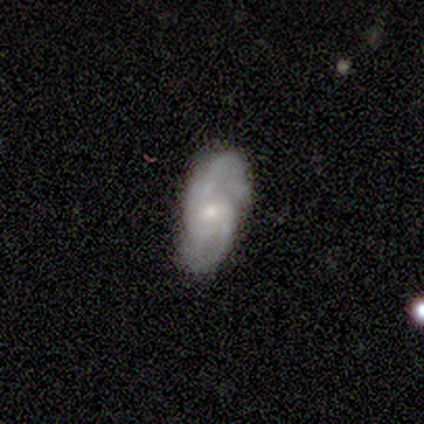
Volunteers were most divided on "spiral arm count" (2-way tie): 2: 50%, 3: 50%, 1: 0%, 4: 0%, more than 4: 0%, can't tell: 0%. More confident: edge-on disk — no (100%); spiral arms — yes (100%); spiral winding — medium (100%); smooth or featured — featured or disk (80%); bar — no (75%); merging — none (75%); bulge size — small (50%).